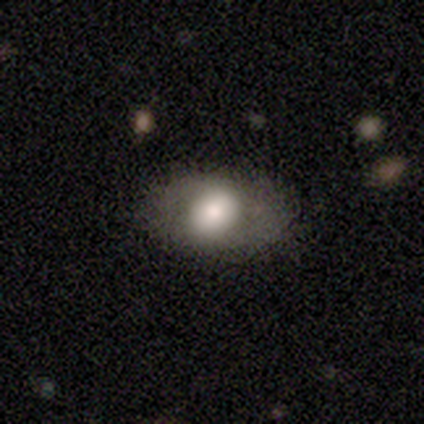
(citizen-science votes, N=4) smooth-or-featured: smooth: 75% | featured or disk: 25% | star or artifact: 0%
  how-rounded: in between: 100% | round: 0% | cigar-shaped: 0%
  merging: none: 100% | minor disturbance: 0% | major disturbance: 0% | merger: 0%